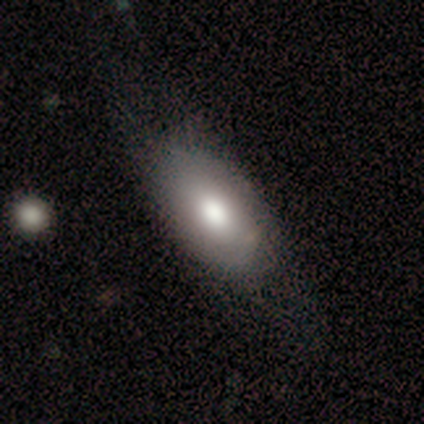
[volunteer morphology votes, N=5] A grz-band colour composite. It shows a smooth galaxy with no disk features (100%) that is in between round and cigar-shaped (100%). Merging: none (100%).